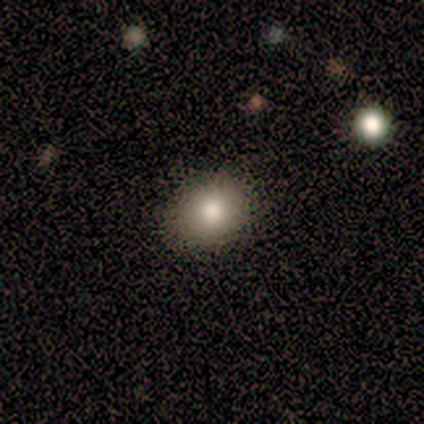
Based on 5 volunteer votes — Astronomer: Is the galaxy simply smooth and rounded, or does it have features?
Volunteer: smooth — 100%.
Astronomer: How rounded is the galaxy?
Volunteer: in between — 60% (runner-up: round, 40%).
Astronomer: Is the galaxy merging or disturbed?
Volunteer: none — 100%.